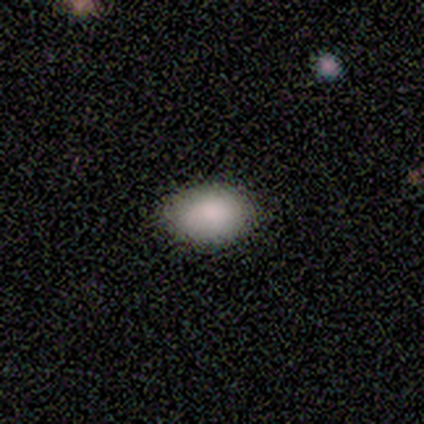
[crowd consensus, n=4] Smooth or featured? smooth (100%)
How rounded? in between (75%)
Merging? none (50%, tied with minor disturbance)